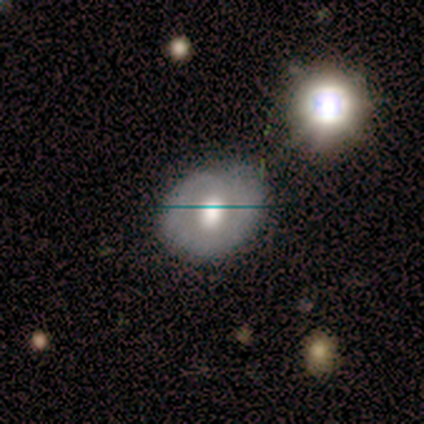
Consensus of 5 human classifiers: Smooth or featured? smooth (60%)
How rounded? round (67%)
Merging? none (50%, tied with minor disturbance)